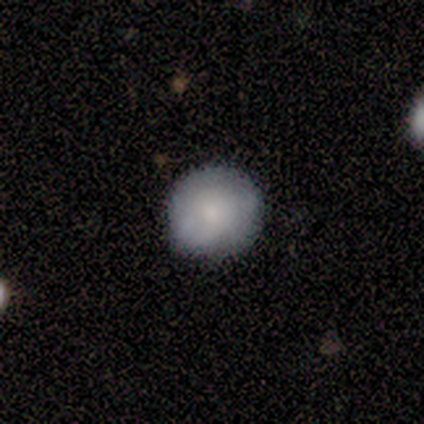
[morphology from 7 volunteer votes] A smooth galaxy with no disk features (71%) that is round (100%).

Vote fractions:
- Smooth or featured? smooth: 71% / featured or disk: 29% / star or artifact: 0%
- How rounded? round: 100% / in between: 0% / cigar-shaped: 0%
- Merging? none: 71% / minor disturbance: 29% / major disturbance: 0% / merger: 0%